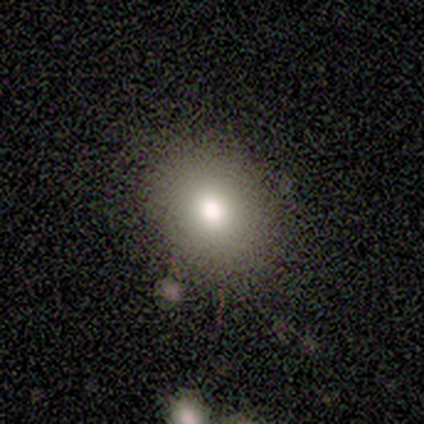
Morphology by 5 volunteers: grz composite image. It shows a smooth galaxy with no disk features (100%) that is round (60%). Merging: none (100%).